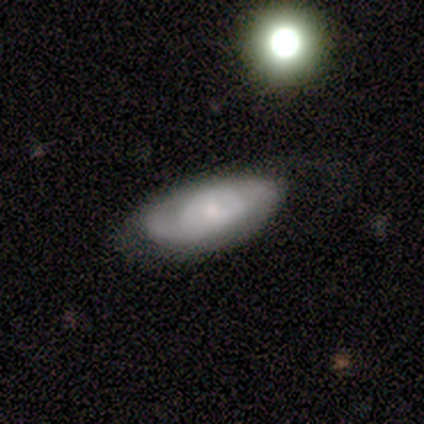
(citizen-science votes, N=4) Smooth or featured: smooth — 75% (star or artifact — 25%)
How rounded: in between — 100%
Merging: minor disturbance — 67% (none — 33%)